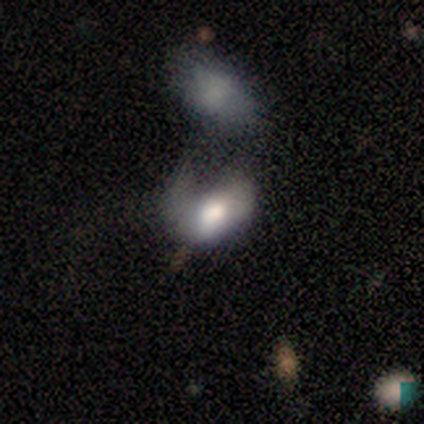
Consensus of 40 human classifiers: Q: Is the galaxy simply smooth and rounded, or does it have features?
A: smooth — 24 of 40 (60%).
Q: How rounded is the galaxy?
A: in between — 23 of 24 (96%).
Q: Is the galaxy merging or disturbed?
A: major disturbance — 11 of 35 (31%).